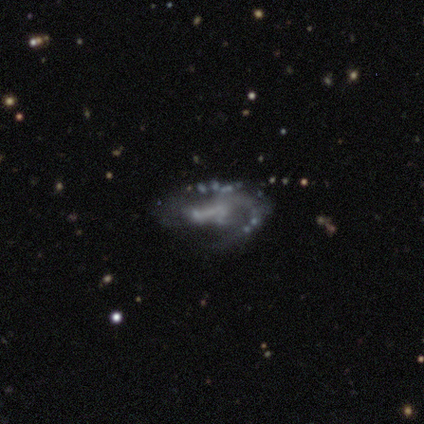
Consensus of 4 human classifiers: Smooth or featured? 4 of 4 (100%) said featured or disk. Edge-on disk? 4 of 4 (100%) said no. Bar? 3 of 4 (75%) said weak. Spiral arms? 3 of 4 (75%) said yes. Spiral winding? 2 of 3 (67%) said loose. Spiral arm count? 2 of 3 (67%) said 1. Bulge size? 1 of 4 (25%, tied with moderate, small and none) said large. Merging? 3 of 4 (75%) said none.